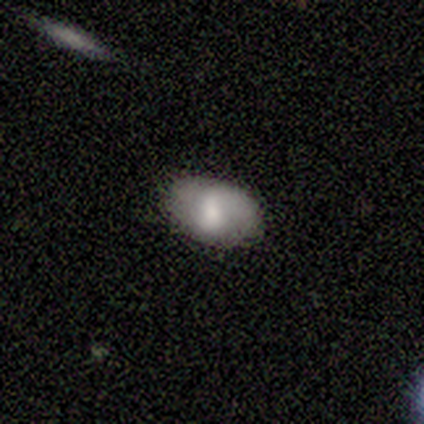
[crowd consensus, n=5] Overall: smooth (80%). How rounded: in between (100%). Merging: none (100%).